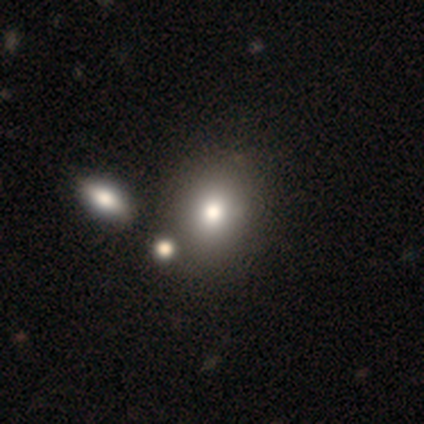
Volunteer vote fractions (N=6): Q: Smooth or featured?
A: smooth (67%); runner-up: featured or disk (17%)
Q: How rounded?
A: round (50%); tied with: in between (50%)
Q: Merging?
A: none (60%); runner-up: merger (40%)